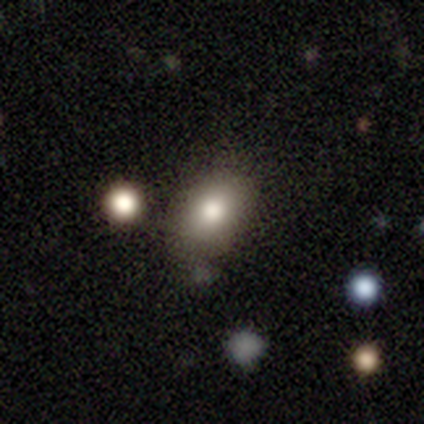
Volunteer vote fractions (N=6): smooth-or-featured: smooth: 67% | star or artifact: 33% | featured or disk: 0%
  how-rounded: in between: 100% | round: 0% | cigar-shaped: 0%
  merging: none: 50% (tied) | minor disturbance: 50% (tied) | major disturbance: 0% | merger: 0%